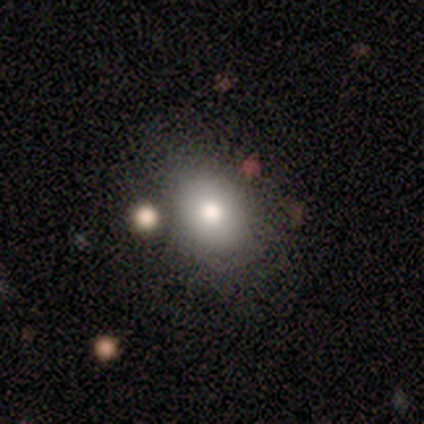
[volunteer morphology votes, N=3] This appears to be a smooth galaxy with no disk features (100%) that is in between round and cigar-shaped (67%). Merging: none (67%).